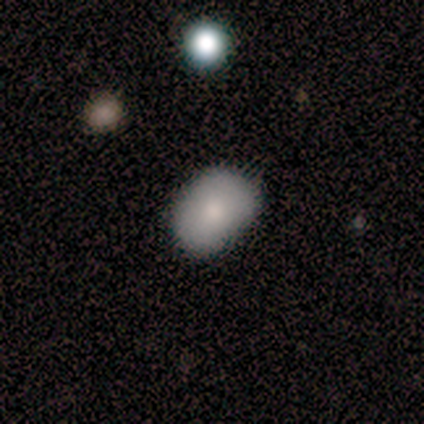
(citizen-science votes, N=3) smooth_or_featured: smooth (p=0.33) [tied with: featured or disk p=0.33, star or artifact p=0.33]
how_rounded: in between (p=1.00)
merging: none (p=1.00)